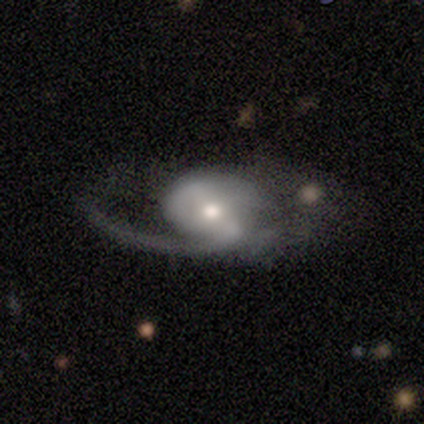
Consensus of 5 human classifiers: Volunteers were most divided on "smooth or featured": featured or disk: 60%, smooth: 40%, star or artifact: 0%. More confident: edge-on disk — no (100%); bar — weak (100%); spiral arms — yes (100%); spiral arm count — 1 (100%); spiral winding — loose (67%); bulge size — moderate (67%); merging — minor disturbance (60%).